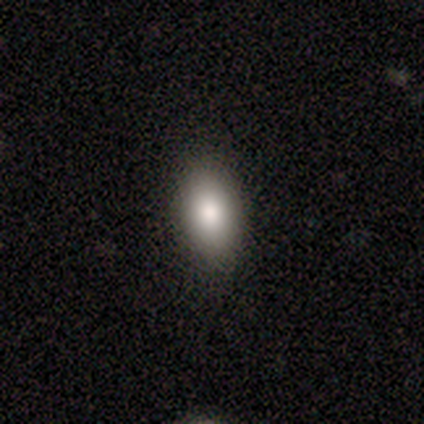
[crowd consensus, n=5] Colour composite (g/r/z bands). It shows a smooth galaxy with no disk features (100%) that is in between round and cigar-shaped (100%). Merging: none (100%).